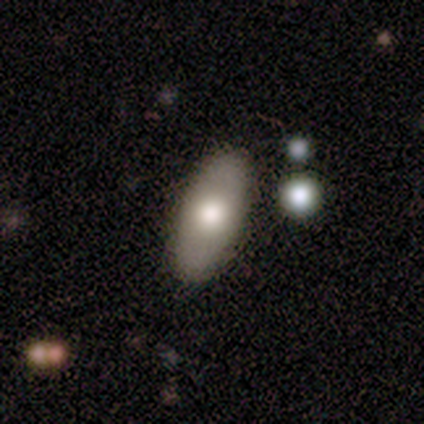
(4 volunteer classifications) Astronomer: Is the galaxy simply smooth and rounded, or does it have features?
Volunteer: featured or disk — 75%.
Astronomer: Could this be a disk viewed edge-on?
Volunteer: no — 67%.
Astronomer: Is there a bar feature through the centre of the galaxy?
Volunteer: no — 100%.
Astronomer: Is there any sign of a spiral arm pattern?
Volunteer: no — 100%.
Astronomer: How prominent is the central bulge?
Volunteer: moderate — 100%.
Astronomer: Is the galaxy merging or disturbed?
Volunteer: none — 75%.